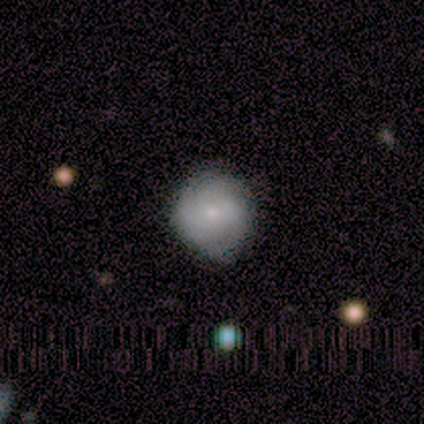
A smooth galaxy with no disk features (50%, tied with featured or disk) that is round (100%). Merging: none (100%).